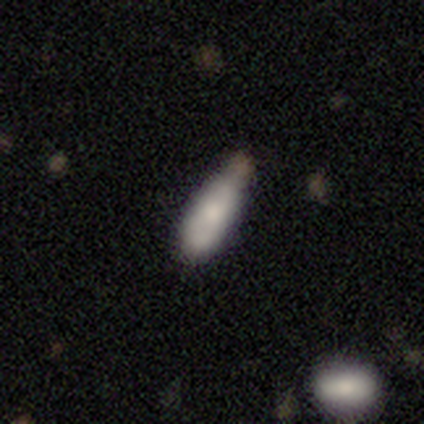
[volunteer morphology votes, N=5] type=smooth (80%); roundness=in between (75%); merging=minor disturbance (60%).